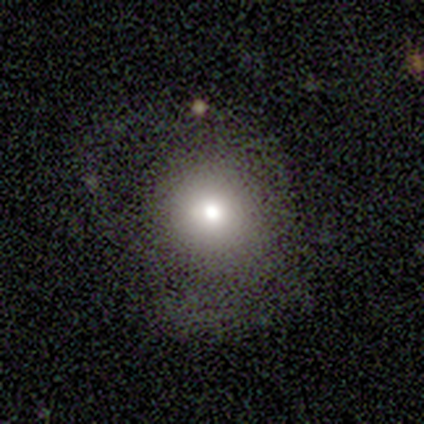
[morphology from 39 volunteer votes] type=smooth (69%); roundness=round (100%); merging=none (71%).